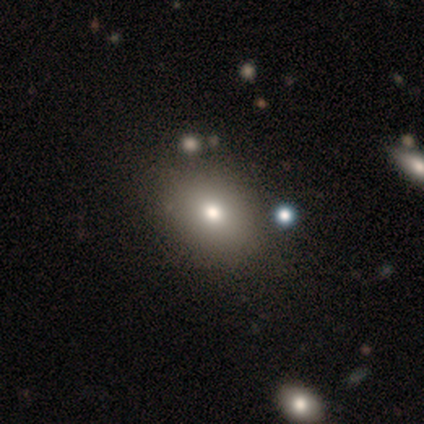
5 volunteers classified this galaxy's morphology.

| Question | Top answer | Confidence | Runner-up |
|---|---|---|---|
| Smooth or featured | smooth | 100% | — |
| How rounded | in between | 60% | round (40%) |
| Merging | none | 100% | — |